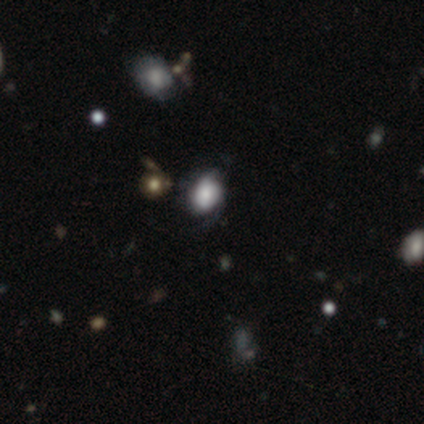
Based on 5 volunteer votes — Q: Smooth or featured?
A: smooth (60%); runner-up: featured or disk (20%)
Q: How rounded?
A: round (67%); runner-up: in between (33%)
Q: Merging?
A: major disturbance (50%); runner-up: none (25%)